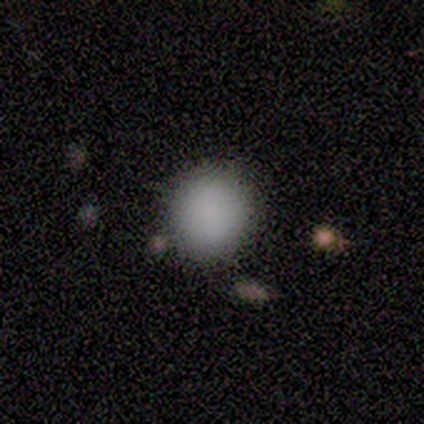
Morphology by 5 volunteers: smooth 80%, featured or disk 20%, star or artifact 0%. Down the decision tree: how rounded — round (100%); merging — none (80%).